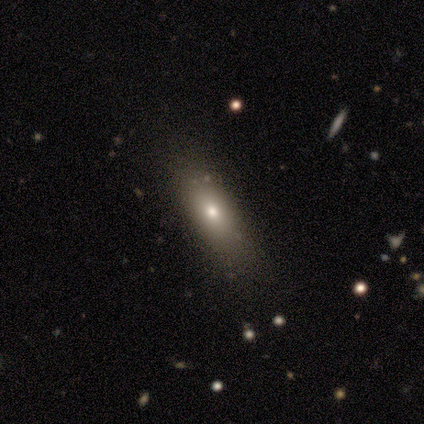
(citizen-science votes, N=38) Morphology: type=smooth (82%); roundness=in between (71%); merging=none (57%).